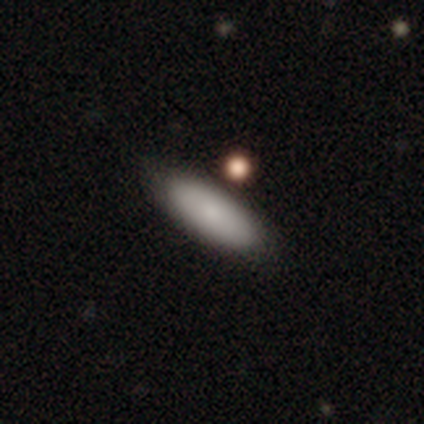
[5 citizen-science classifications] Morphology: type=smooth (100%); roundness=in between (80%); merging=none (80%).